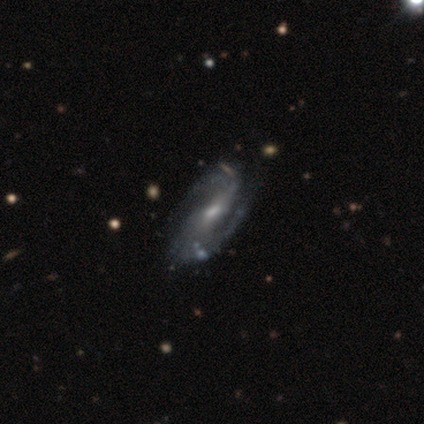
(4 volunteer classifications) Overall: featured or disk (100%). Edge-on disk: no (100%). Bar: strong (50%, tied with weak). Spiral arms: yes (100%). Spiral arm count: 2 (75%). Spiral winding: tight (50%, tied with medium). Bulge size: moderate (75%). Merging: none (100%).